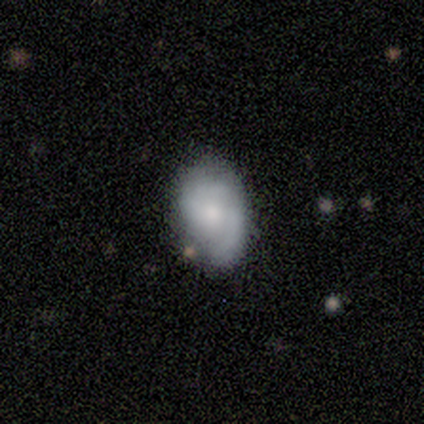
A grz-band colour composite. It shows a featured or disk galaxy (50%) with a weak bar (50%, tied with no), 1 (50%, tied with 2) tight (100%) spiral arms (100%) and a small central bulge (100%). Merging: none (67%).